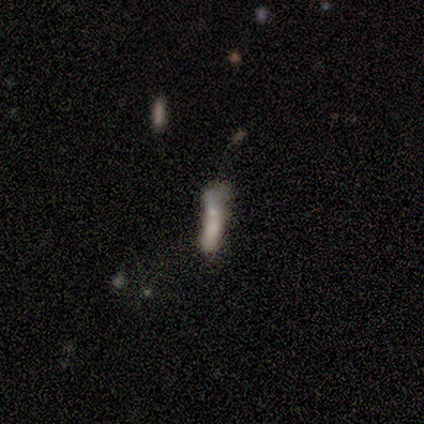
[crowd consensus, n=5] Smooth or featured?
  - smooth: 80% *
  - featured or disk: 20%
  - star or artifact: 0%
How rounded?
  - cigar-shaped: 75% *
  - in between: 25%
  - round: 0%
Merging?
  - major disturbance: 40% *
  - none: 20%
  - minor disturbance: 20%
  - merger: 20%